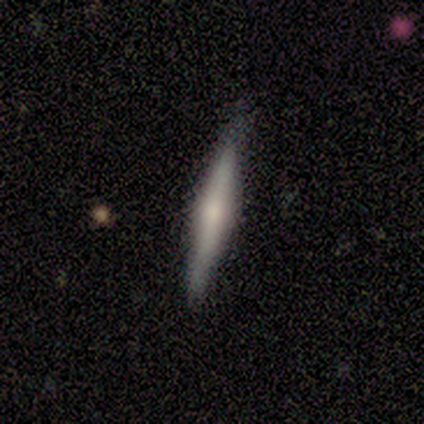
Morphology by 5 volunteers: A smooth galaxy with no disk features (40%, tied with featured or disk) that is cigar-shaped (100%).

Vote fractions:
- Smooth or featured? smooth: 40% (tied) / featured or disk: 40% (tied) / star or artifact: 20%
- How rounded? cigar-shaped: 100% / round: 0% / in between: 0%
- Merging? none: 100% / minor disturbance: 0% / major disturbance: 0% / merger: 0%